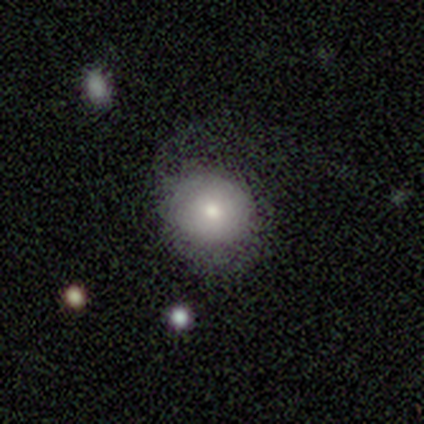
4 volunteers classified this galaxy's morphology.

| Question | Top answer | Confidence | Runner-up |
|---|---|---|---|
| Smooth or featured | smooth | 75% | star or artifact (25%) |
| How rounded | round | 100% | — |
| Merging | none | 33% | tied: minor disturbance (33%), major disturbance (33%) |